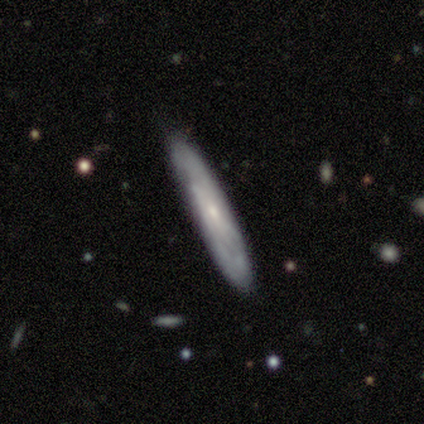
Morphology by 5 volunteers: Volunteers were most divided on "edge-on bulge": none: 67%, rounded: 33%, boxy: 0%. More confident: merging — none (100%); smooth or featured — featured or disk (80%); edge-on disk — yes (75%).